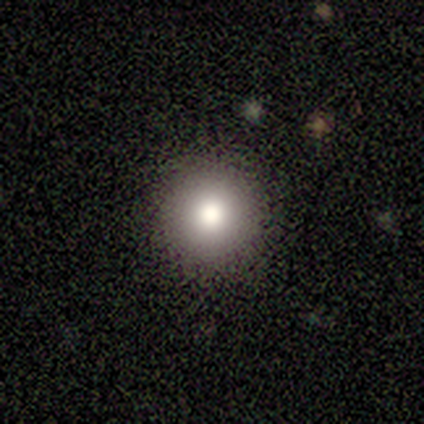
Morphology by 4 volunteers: Smooth or featured? smooth (100%)
How rounded? round (100%)
Merging? none (100%)